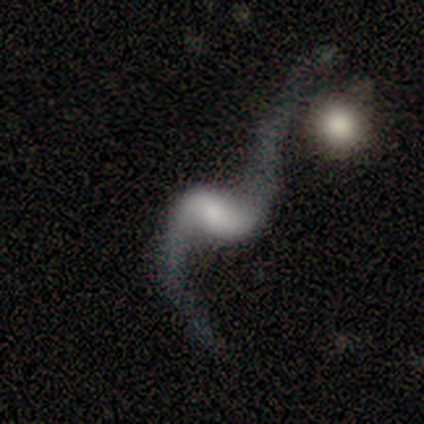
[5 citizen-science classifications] Smooth or featured: featured or disk — 100%
Edge-on disk: no — 100%
Bar: weak — 100%
Spiral arms: yes — 100%
Spiral winding: loose — 100%
Spiral arm count: 2 — 100%
Bulge size: small — 60% (large — 20%)
Merging: minor disturbance — 40% (none — 20%)